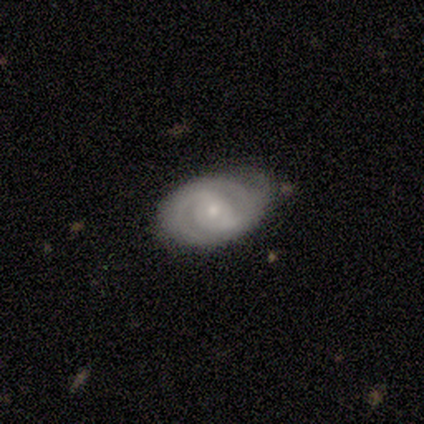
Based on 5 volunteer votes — smooth_or_featured: featured or disk (p=1.00)
disk_edge_on: no (p=1.00)
bar: weak (p=0.40) [tied with: no p=0.40]
has_spiral_arms: yes (p=1.00)
spiral_winding: tight (p=0.80) [alt: medium p=0.20]
spiral_arm_count: 2 (p=0.60) [alt: 3 p=0.20]
bulge_size: small (p=1.00)
merging: none (p=0.80) [alt: minor disturbance p=0.20]